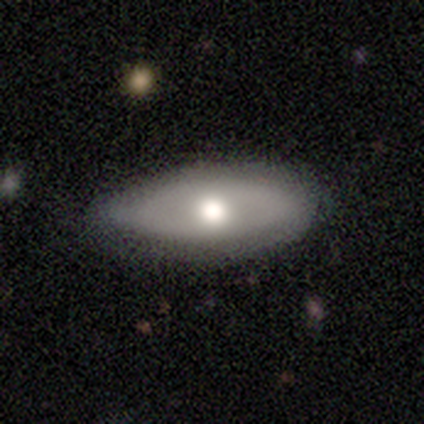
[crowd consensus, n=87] smooth 61%, featured or disk 33%, star or artifact 6%. Down the decision tree: how rounded — in between (87%); merging — none (70%).